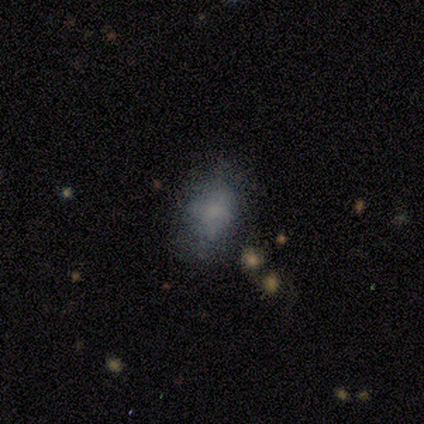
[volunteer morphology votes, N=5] This appears to be a smooth galaxy with no disk features (80%) that is in between round and cigar-shaped (100%). Merging: none (80%).